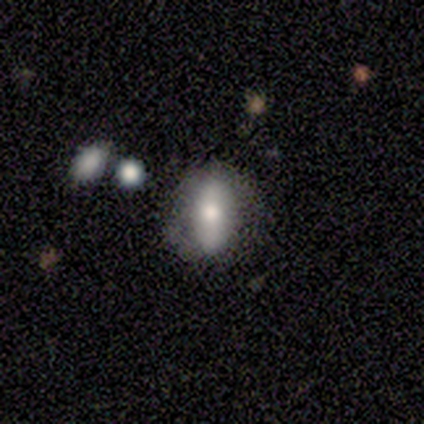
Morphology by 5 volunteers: Q: Smooth or featured?
A: smooth (60%); runner-up: featured or disk (40%)
Q: How rounded?
A: in between (100%)
Q: Merging?
A: none (60%); runner-up: minor disturbance (40%)